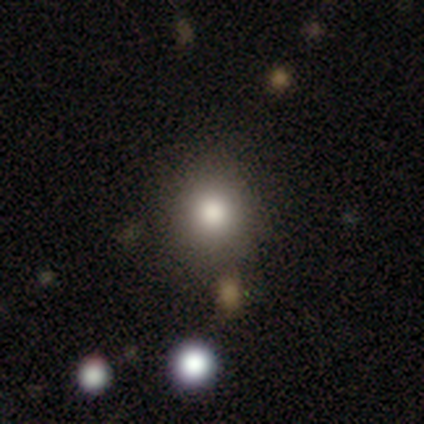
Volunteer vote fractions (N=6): Q: Smooth or featured?
A: smooth (100%)
Q: How rounded?
A: round (83%); runner-up: in between (17%)
Q: Merging?
A: none (83%); runner-up: minor disturbance (17%)